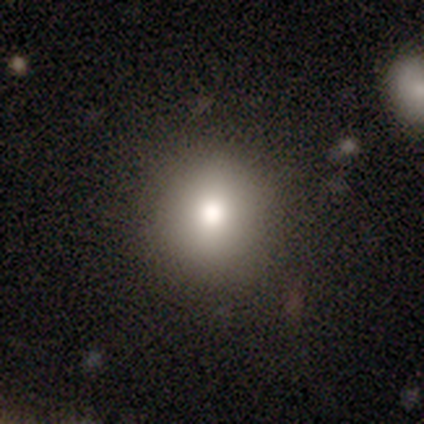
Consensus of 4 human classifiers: Volunteers were most divided on "smooth or featured": smooth: 75%, featured or disk: 25%, star or artifact: 0%. More confident: how rounded — round (100%); merging — none (100%).